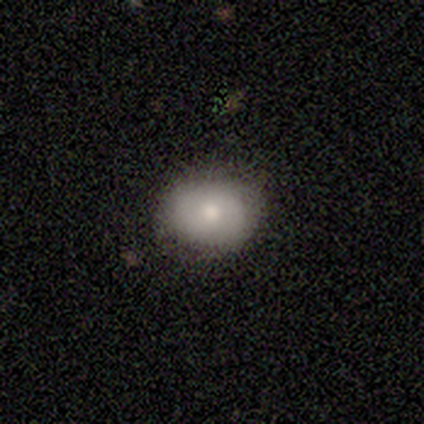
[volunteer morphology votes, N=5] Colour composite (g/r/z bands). It shows a smooth galaxy with no disk features (100%) that is round (60%). Merging: none (80%).